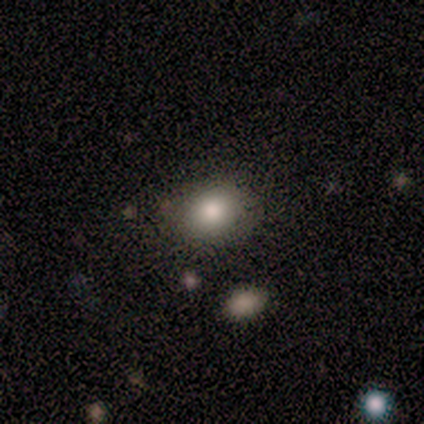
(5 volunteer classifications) Smooth or featured? 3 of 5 (60%) said smooth. How rounded? 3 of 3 (100%) said round. Merging? 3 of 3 (100%) said none.